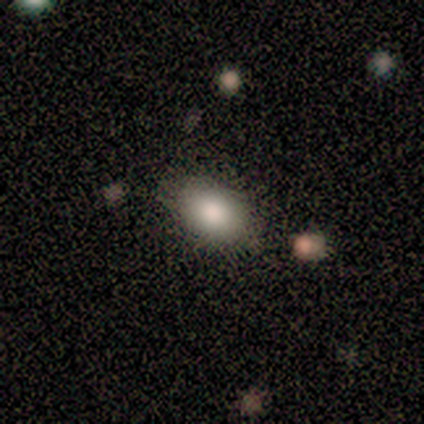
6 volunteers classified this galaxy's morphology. smooth-or-featured: smooth: 100% | featured or disk: 0% | star or artifact: 0%
  how-rounded: in between: 100% | round: 0% | cigar-shaped: 0%
  merging: none: 100% | minor disturbance: 0% | major disturbance: 0% | merger: 0%